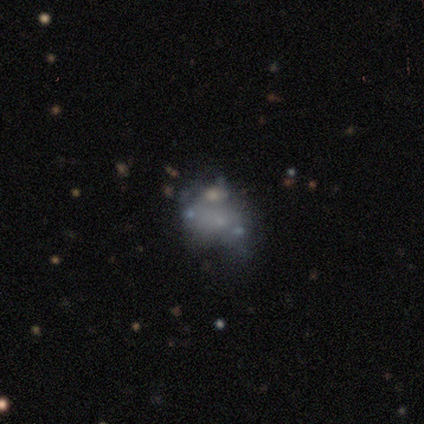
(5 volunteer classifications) smooth_or_featured: smooth (p=0.60) [alt: featured or disk p=0.20]
how_rounded: in between (p=0.67) [alt: round p=0.33]
merging: minor disturbance (p=0.75) [alt: major disturbance p=0.25]